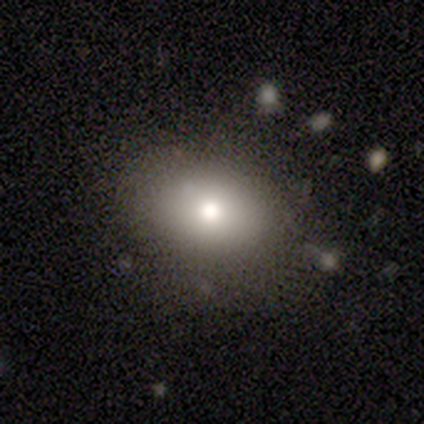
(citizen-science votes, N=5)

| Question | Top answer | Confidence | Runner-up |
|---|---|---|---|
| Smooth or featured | smooth | 100% | — |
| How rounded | in between | 80% | round (20%) |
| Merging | none | 80% | minor disturbance (20%) |